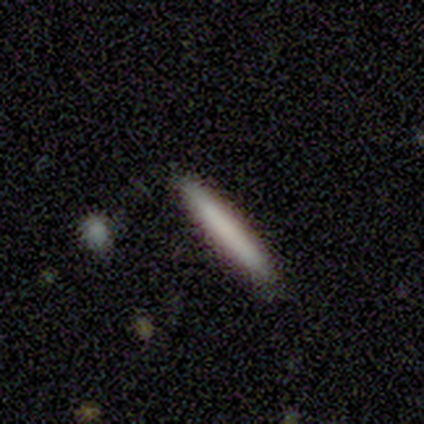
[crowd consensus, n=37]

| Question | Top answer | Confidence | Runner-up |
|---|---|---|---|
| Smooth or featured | smooth | 78% | featured or disk (19%) |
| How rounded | cigar-shaped | 90% | in between (7%) |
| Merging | none | 97% | minor disturbance (3%) |